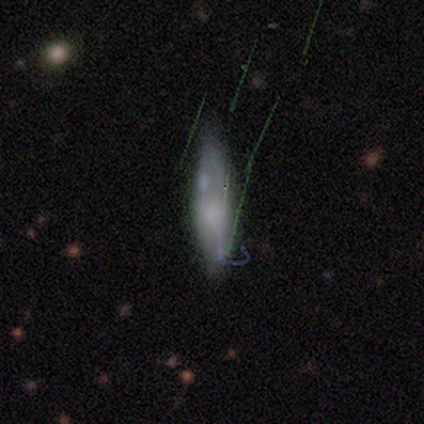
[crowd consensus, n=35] Volunteers were most divided on "smooth or featured" (2-way tie): smooth: 40%, featured or disk: 40%, star or artifact: 20%. More confident: how rounded — in between (64%); merging — none (57%).